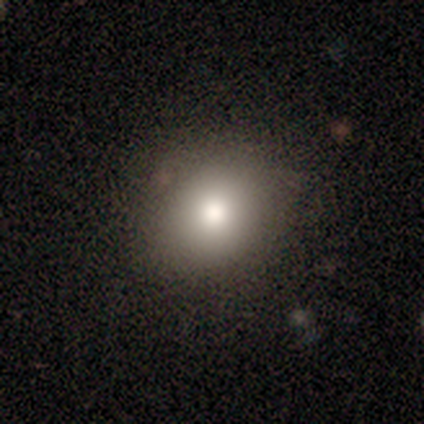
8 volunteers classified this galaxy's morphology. A smooth galaxy with no disk features (88%) that is in between round and cigar-shaped (57%).

Vote fractions:
- Smooth or featured? smooth: 88% / star or artifact: 12% / featured or disk: 0%
- How rounded? in between: 57% / round: 43% / cigar-shaped: 0%
- Merging? none: 100% / minor disturbance: 0% / major disturbance: 0% / merger: 0%